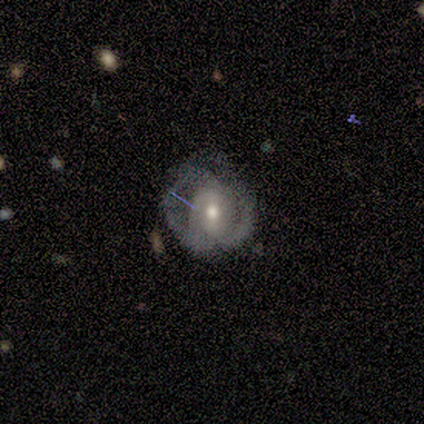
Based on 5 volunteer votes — smooth_or_featured: featured or disk (p=1.00)
disk_edge_on: no (p=1.00)
bar: no (p=0.60) [alt: strong p=0.20]
has_spiral_arms: yes (p=0.80) [alt: no p=0.20]
spiral_winding: tight (p=0.50) [tied with: loose p=0.50]
spiral_arm_count: 2 (p=0.75) [alt: 3 p=0.25]
bulge_size: moderate (p=0.80) [alt: small p=0.20]
merging: none (p=0.80) [alt: major disturbance p=0.20]